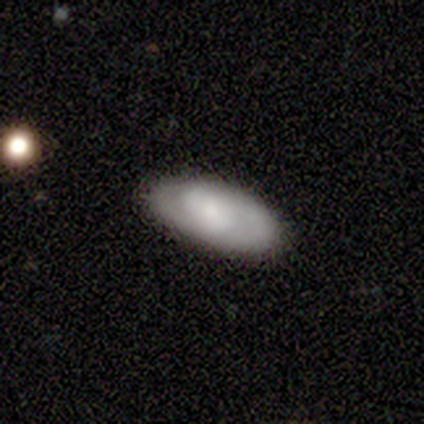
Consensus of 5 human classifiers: Smooth or featured?
  - smooth: 60% *
  - featured or disk: 40%
  - star or artifact: 0%
How rounded?
  - cigar-shaped: 67% *
  - in between: 33%
  - round: 0%
Merging?
  - major disturbance: 40% *
  - none: 20%
  - minor disturbance: 20%
  - merger: 20%